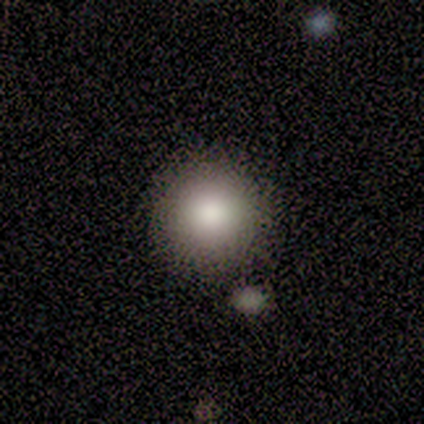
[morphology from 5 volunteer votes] smooth 100%, featured or disk 0%, star or artifact 0%. Down the decision tree: how rounded — round (100%); merging — none (80%).